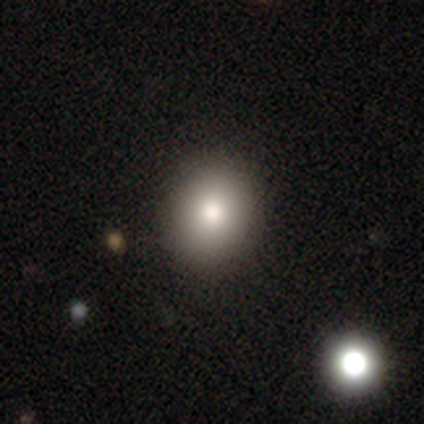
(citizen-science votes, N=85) Morphology: type=smooth (76%); roundness=round (66%); merging=none (82%).